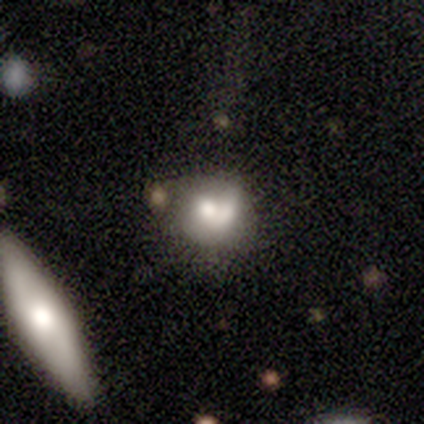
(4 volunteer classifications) smooth 100%, featured or disk 0%, star or artifact 0%. Down the decision tree: how rounded — round (75%); merging — merger (50%).